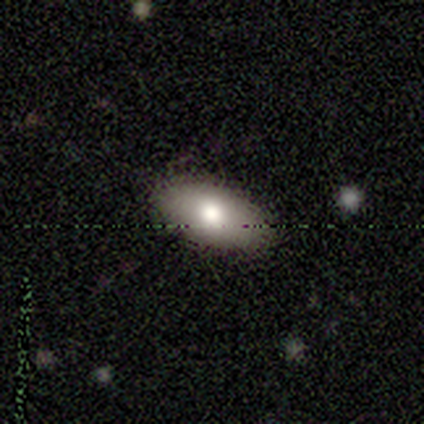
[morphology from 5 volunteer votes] smooth_or_featured: star or artifact (p=0.60) [alt: smooth p=0.40]